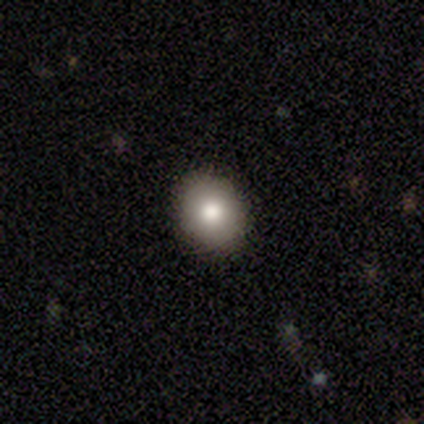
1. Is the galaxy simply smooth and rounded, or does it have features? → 100% smooth, 0% featured or disk, 0% star or artifact.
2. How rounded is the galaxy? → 75% in between, 25% round, 0% cigar-shaped.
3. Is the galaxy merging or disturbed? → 100% none, 0% minor disturbance, 0% major disturbance, 0% merger.